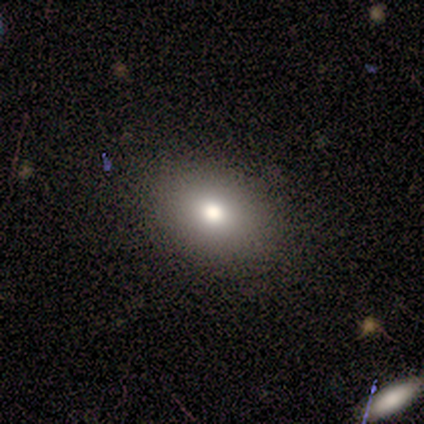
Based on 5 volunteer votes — Smooth or featured?
  - smooth: 100% *
  - featured or disk: 0%
  - star or artifact: 0%
How rounded?
  - in between: 100% *
  - round: 0%
  - cigar-shaped: 0%
Merging?
  - none: 80% *
  - minor disturbance: 20%
  - major disturbance: 0%
  - merger: 0%